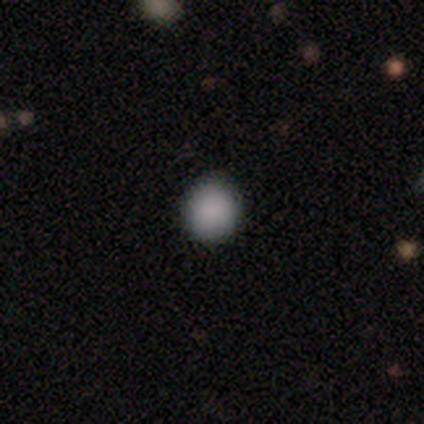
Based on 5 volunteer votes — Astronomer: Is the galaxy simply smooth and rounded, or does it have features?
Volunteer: smooth — 100%.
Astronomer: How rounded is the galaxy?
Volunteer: round — 100%.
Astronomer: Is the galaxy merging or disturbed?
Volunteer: none — 80%.